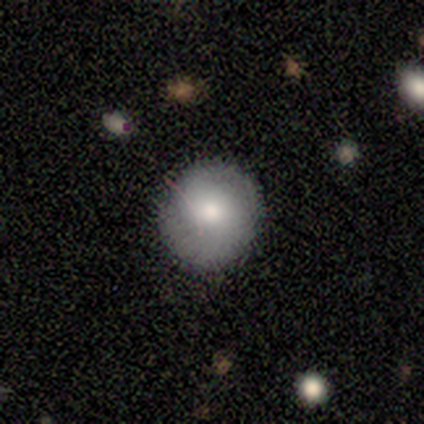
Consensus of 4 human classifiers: Q: Smooth or featured?
A: smooth (50%); tied with: featured or disk (50%)
Q: How rounded?
A: round (50%); tied with: in between (50%)
Q: Merging?
A: none (50%); runner-up: minor disturbance (25%)